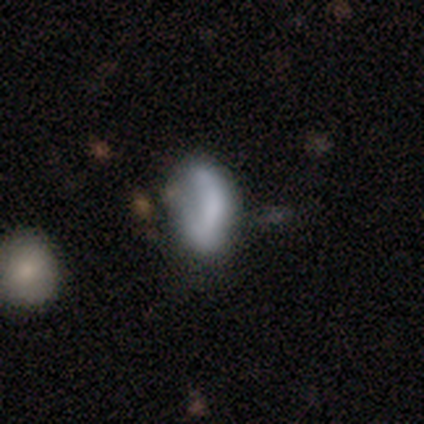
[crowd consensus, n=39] smooth 74%, featured or disk 15%, star or artifact 10%. Down the decision tree: how rounded — in between (90%); merging — minor disturbance (40%).